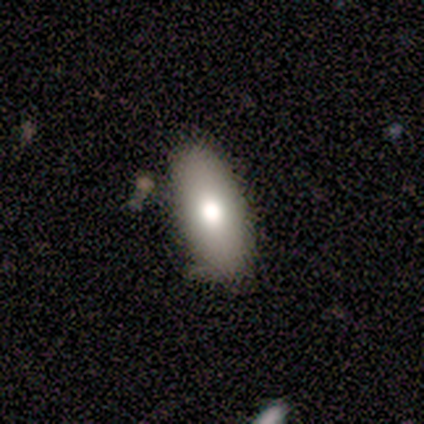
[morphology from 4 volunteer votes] smooth 100%, featured or disk 0%, star or artifact 0%. Down the decision tree: how rounded — in between (100%); merging — none (100%).